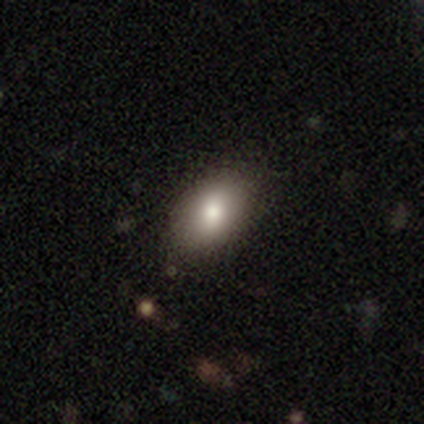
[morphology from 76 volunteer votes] Smooth or featured? 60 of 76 (79%) said smooth. How rounded? 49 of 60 (82%) said in between. Merging? 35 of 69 (51%) said none.